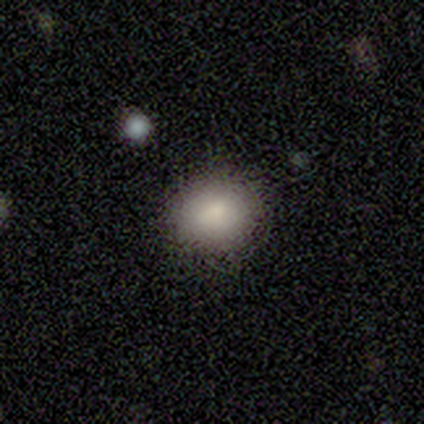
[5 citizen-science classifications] Smooth or featured? smooth (80%)
How rounded? round (50%, tied with in between)
Merging? none (75%)